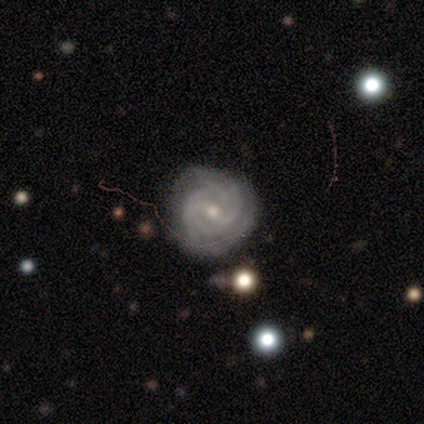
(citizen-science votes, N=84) featured or disk 90%, star or artifact 6%, smooth 4%. Down the decision tree: edge-on disk — no (95%); bar — weak (46%, tied with no); spiral arms — yes (97%); spiral arm count — can't tell (33%); spiral winding — tight (83%); bulge size — small (68%); merging — none (86%).